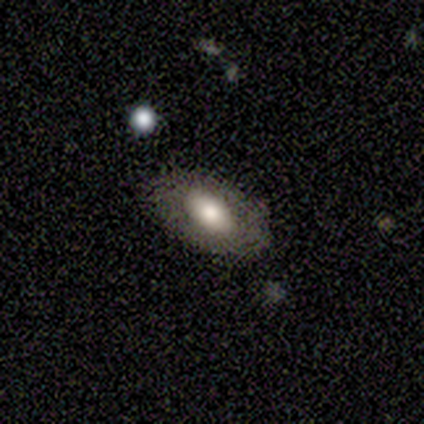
Smooth or featured? 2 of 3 (67%) said smooth. How rounded? 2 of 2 (100%) said in between. Merging? 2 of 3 (67%) said none.